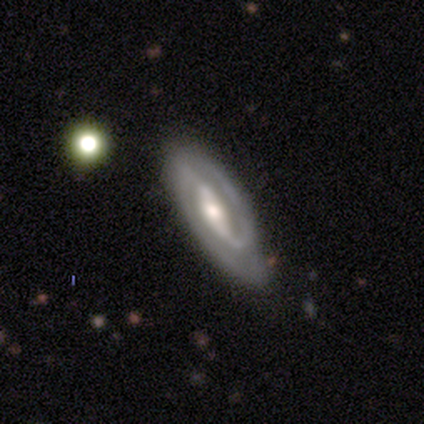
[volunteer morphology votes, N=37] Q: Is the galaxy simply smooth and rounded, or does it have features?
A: featured or disk — 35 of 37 (95%).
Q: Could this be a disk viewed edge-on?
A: no — 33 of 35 (94%).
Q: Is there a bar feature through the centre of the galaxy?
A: strong — 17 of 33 (52%).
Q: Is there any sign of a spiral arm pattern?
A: yes — 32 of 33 (97%).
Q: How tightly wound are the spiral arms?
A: medium — 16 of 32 (50%).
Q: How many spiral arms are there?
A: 2 — 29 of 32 (91%).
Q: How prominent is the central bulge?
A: moderate — 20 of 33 (61%).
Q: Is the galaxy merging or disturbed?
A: none — 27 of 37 (73%).